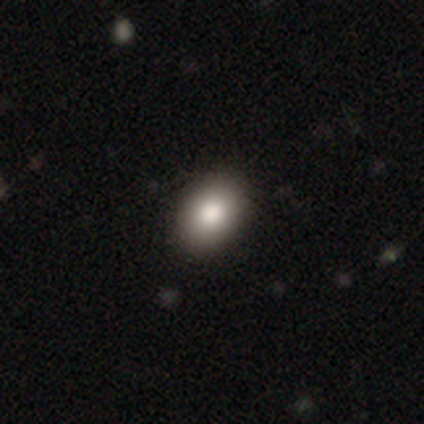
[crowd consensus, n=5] A smooth galaxy with no disk features (80%) that is in between round and cigar-shaped (100%). Merging: none (100%).